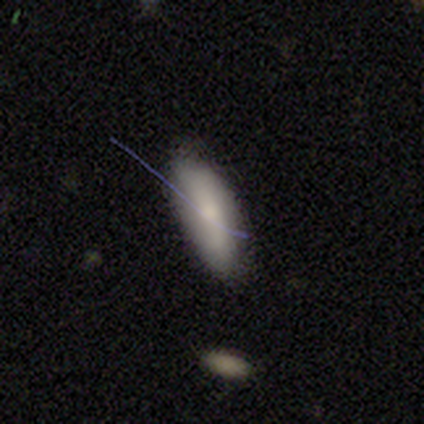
This appears to be a smooth galaxy with no disk features (77%) that is in between round and cigar-shaped (70%). Merging: none (73%).